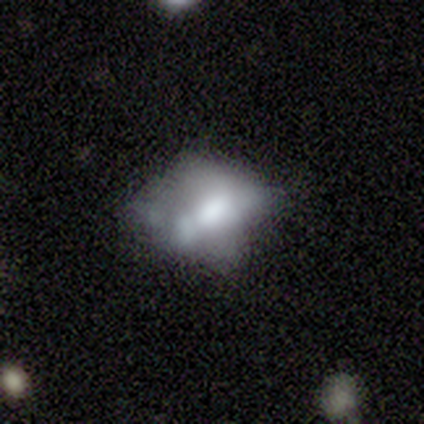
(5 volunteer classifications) smooth 100%, featured or disk 0%, star or artifact 0%. Down the decision tree: how rounded — in between (100%); merging — merger (80%).